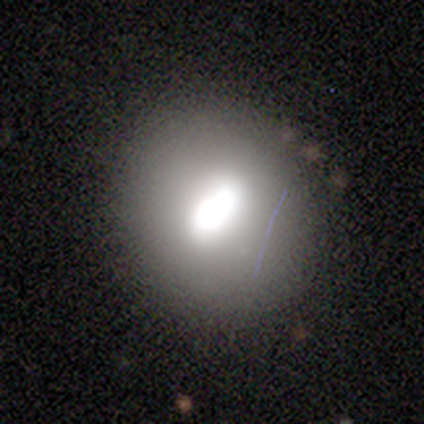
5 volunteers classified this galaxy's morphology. Smooth or featured?
  - smooth: 100% *
  - featured or disk: 0%
  - star or artifact: 0%
How rounded?
  - round: 80% *
  - in between: 20%
  - cigar-shaped: 0%
Merging?
  - none: 40% * (tied)
  - minor disturbance: 40% * (tied)
  - merger: 20%
  - major disturbance: 0%